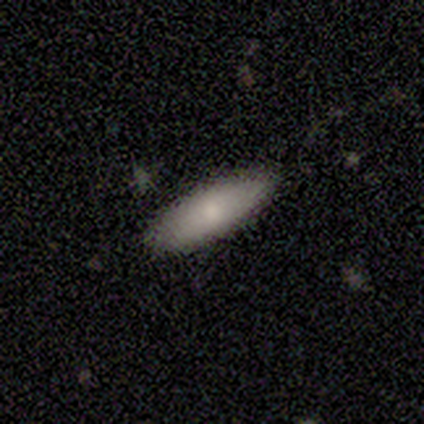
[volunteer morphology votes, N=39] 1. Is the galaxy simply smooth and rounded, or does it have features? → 79% smooth, 15% featured or disk, 5% star or artifact.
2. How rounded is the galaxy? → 68% in between, 32% cigar-shaped, 0% round.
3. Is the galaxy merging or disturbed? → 84% none, 16% minor disturbance, 0% major disturbance, 0% merger.